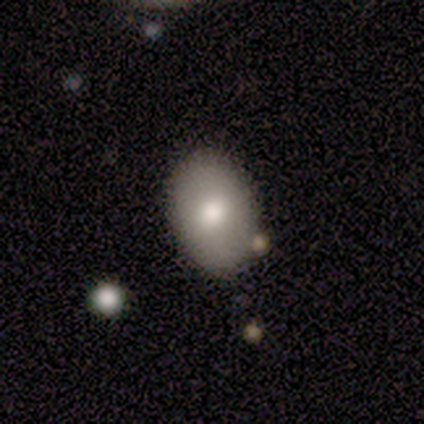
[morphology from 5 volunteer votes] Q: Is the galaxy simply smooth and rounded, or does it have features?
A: smooth — 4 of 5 (80%).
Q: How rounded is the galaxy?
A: in between — 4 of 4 (100%).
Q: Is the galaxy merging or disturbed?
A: none — 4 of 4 (100%).